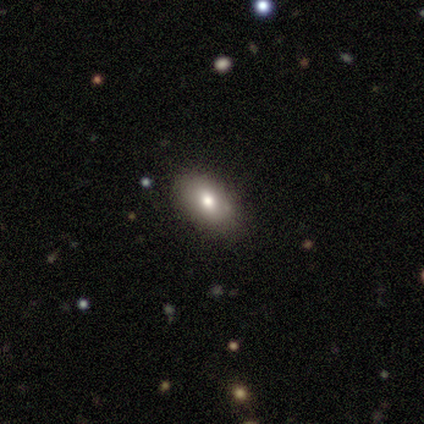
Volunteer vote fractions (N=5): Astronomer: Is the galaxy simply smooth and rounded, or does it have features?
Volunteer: smooth — 60%.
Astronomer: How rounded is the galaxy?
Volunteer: in between — 100%.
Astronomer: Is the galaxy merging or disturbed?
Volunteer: none — 75%.